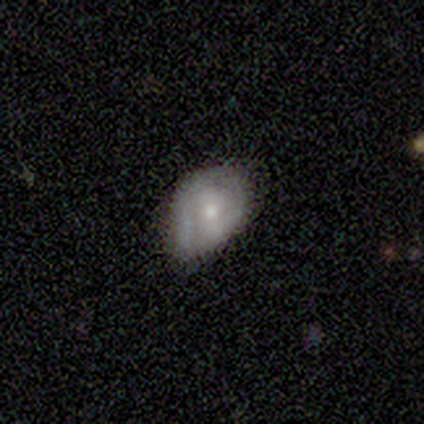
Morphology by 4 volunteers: Smooth or featured?
  - featured or disk: 75% *
  - smooth: 25%
  - star or artifact: 0%
Edge-on disk?
  - no: 100% *
  - yes: 0%
Bar?
  - no: 100% *
  - strong: 0%
  - weak: 0%
Spiral arms?
  - no: 67% *
  - yes: 33%
Bulge size?
  - small: 67% *
  - moderate: 33%
  - dominant: 0%
  - large: 0%
  - none: 0%
Merging?
  - minor disturbance: 75% *
  - none: 25%
  - major disturbance: 0%
  - merger: 0%